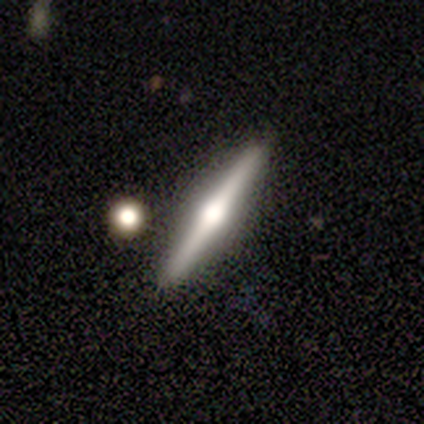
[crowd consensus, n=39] Volunteers were most divided on "smooth or featured": featured or disk: 77%, smooth: 23%, star or artifact: 0%. More confident: edge-on disk — yes (100%); edge-on bulge — rounded (97%); merging — none (95%).